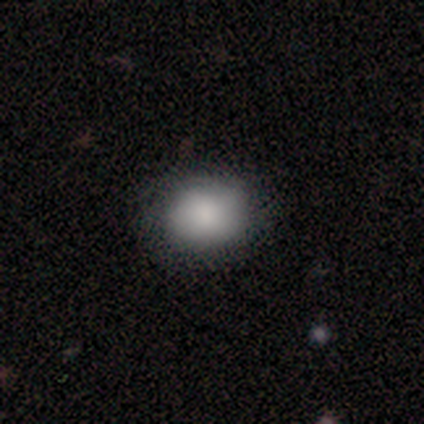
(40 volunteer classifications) Smooth or featured? smooth (82%)
How rounded? round (55%)
Merging? none (59%)